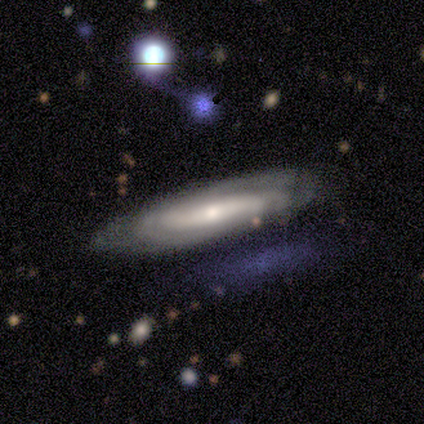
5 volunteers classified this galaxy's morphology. featured or disk 60%, smooth 40%, star or artifact 0%. Down the decision tree: edge-on disk — yes (67%); edge-on bulge — none (50%, tied with rounded); merging — none (100%).